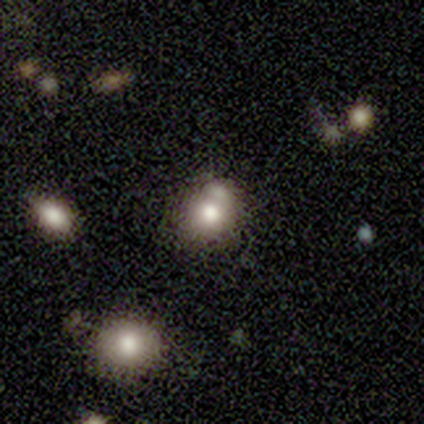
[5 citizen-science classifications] Smooth or featured: smooth — 80% (star or artifact — 20%)
How rounded: round — 100%
Merging: none — 75% (merger — 25%)